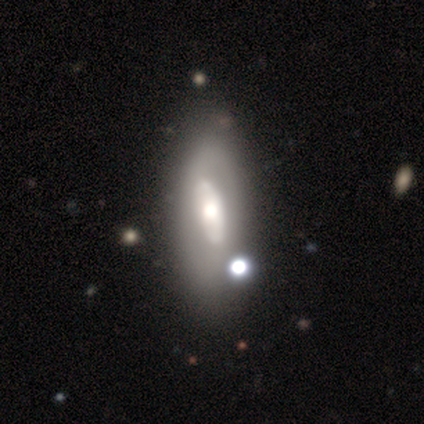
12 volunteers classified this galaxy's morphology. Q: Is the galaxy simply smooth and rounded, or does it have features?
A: featured or disk — 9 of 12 (75%).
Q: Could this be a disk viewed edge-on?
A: no — 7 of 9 (78%).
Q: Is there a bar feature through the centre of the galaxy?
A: no — 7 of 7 (100%).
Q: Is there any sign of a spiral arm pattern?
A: no — 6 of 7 (86%).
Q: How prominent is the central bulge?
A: moderate — 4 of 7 (57%).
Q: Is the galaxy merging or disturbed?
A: none — 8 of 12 (67%).